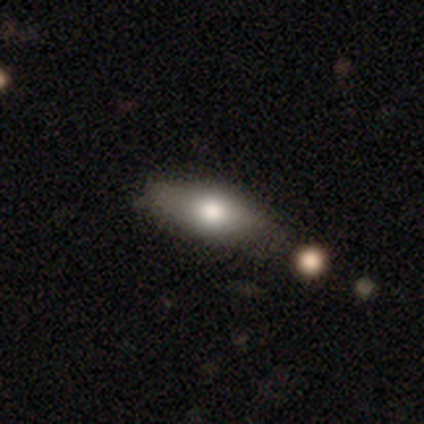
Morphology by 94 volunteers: Smooth or featured: smooth — 80% (featured or disk — 17%)
How rounded: in between — 77% (cigar-shaped — 19%)
Merging: none — 75% (minor disturbance — 14%)